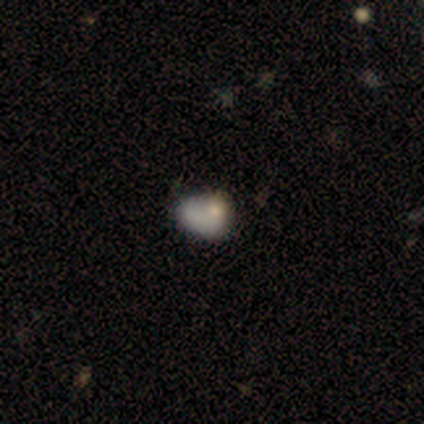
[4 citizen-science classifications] Smooth or featured: smooth — 50% (tied with featured or disk — 50%)
How rounded: in between — 100%
Merging: merger — 50% (minor disturbance — 25%)